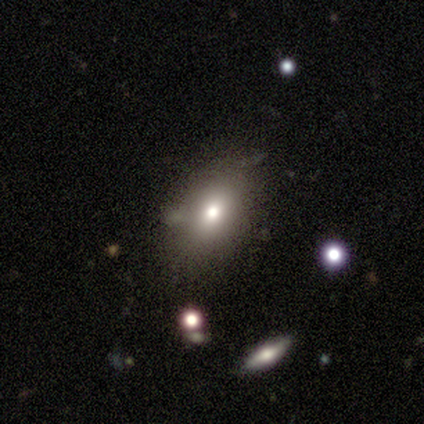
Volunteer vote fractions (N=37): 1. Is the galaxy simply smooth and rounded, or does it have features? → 62% smooth, 24% star or artifact, 14% featured or disk.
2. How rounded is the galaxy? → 70% in between, 26% round, 4% cigar-shaped.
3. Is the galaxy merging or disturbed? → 71% none, 21% minor disturbance, 4% major disturbance, 4% merger.